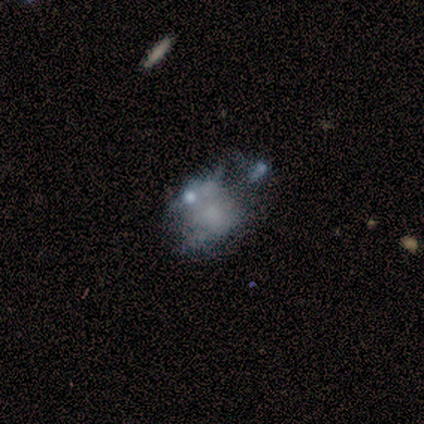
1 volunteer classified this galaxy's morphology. Smooth or featured?
  - smooth: 100% *
  - featured or disk: 0%
  - star or artifact: 0%
How rounded?
  - in between: 100% *
  - round: 0%
  - cigar-shaped: 0%
Merging?
  - major disturbance: 100% *
  - none: 0%
  - minor disturbance: 0%
  - merger: 0%